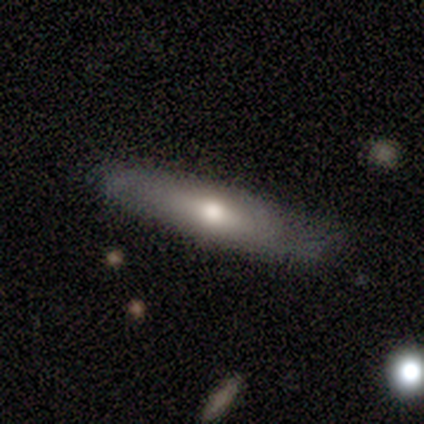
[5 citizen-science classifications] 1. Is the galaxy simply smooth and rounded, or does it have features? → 60% smooth, 40% featured or disk, 0% star or artifact.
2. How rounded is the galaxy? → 100% cigar-shaped, 0% round, 0% in between.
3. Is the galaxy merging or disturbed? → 60% none, 40% minor disturbance, 0% major disturbance, 0% merger.